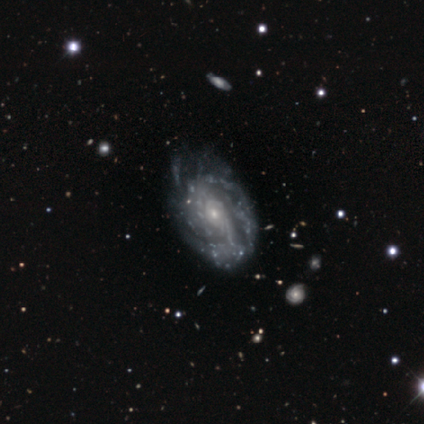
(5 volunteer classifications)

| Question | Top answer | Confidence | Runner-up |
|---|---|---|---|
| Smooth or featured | featured or disk | 80% | smooth (20%) |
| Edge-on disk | no | 100% | — |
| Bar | no | 100% | — |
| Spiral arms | yes | 100% | — |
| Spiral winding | tight | 50% | medium (25%) |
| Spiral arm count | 2 | 50% | tied: can't tell (50%) |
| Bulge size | small | 100% | — |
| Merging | none | 60% | minor disturbance (20%) |